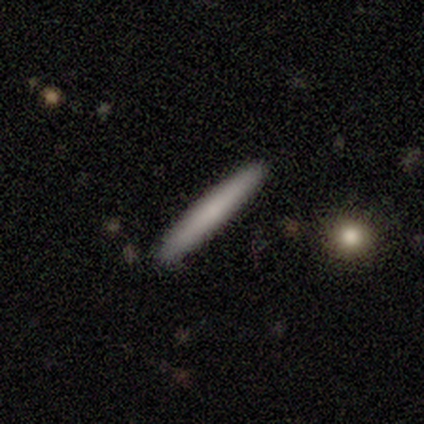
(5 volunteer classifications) This is clearly a smooth galaxy (80%). How rounded: clearly cigar-shaped (100%). Merging: clearly none (100%).